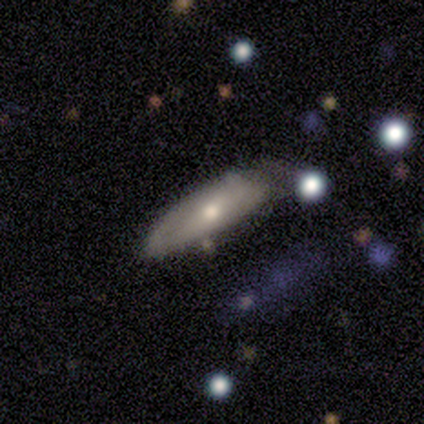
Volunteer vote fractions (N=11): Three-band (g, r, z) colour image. It shows a smooth galaxy with no disk features (55%) that is in between round and cigar-shaped (67%). Merging: minor disturbance (50%).